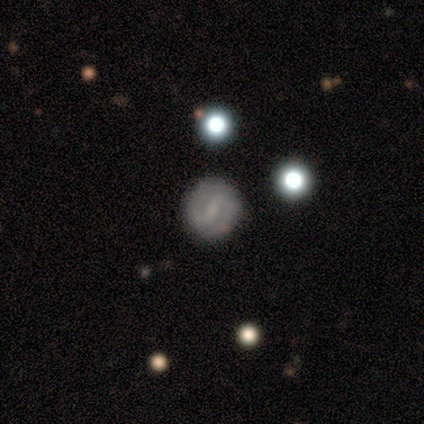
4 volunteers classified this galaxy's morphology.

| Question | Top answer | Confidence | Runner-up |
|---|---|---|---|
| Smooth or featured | featured or disk | 75% | star or artifact (25%) |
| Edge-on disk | no | 100% | — |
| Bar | weak | 67% | no (33%) |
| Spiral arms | yes | 100% | — |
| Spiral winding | tight | 67% | medium (33%) |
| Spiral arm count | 2 | 100% | — |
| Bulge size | none | 67% | moderate (33%) |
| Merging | none | 100% | — |